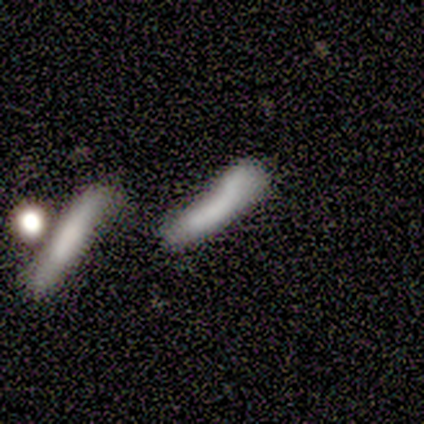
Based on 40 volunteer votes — Q: Smooth or featured?
A: smooth (60%); runner-up: featured or disk (25%)
Q: How rounded?
A: cigar-shaped (83%); runner-up: in between (17%)
Q: Merging?
A: none (50%); runner-up: merger (29%)